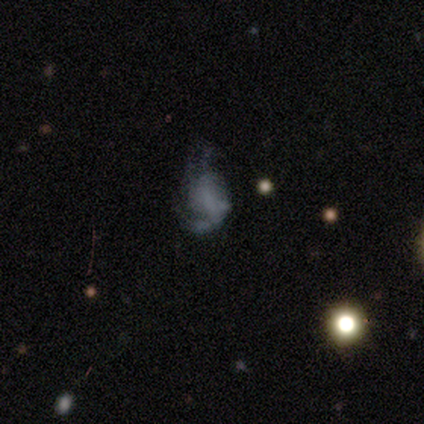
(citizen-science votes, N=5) Overall: featured or disk (40%, tied with star or artifact). Edge-on disk: no (100%). Bar: no (100%). Spiral arms: yes (100%). Spiral arm count: 2 (50%, tied with 3). Spiral winding: loose (100%). Bulge size: none (100%). Merging: none (33%, tied with minor disturbance and major disturbance).